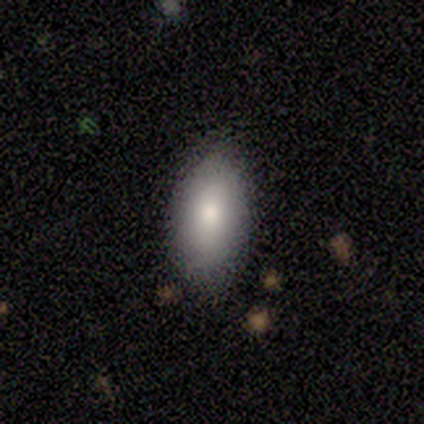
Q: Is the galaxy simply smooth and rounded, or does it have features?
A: smooth — 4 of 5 (80%).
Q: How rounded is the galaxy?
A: in between — 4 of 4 (100%).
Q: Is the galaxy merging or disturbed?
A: none — 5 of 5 (100%).